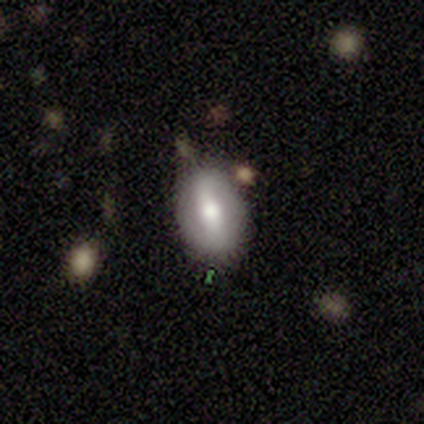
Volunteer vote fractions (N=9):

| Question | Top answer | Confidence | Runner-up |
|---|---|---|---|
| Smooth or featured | smooth | 44% | tied: featured or disk (44%) |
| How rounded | in between | 75% | round (25%) |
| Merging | none | 62% | minor disturbance (25%) |